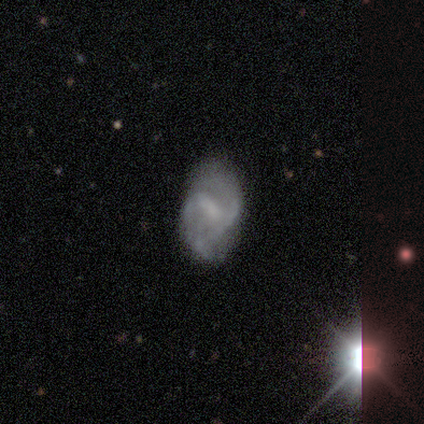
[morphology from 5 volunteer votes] A featured or disk galaxy (80%) with a strong bar (50%, tied with weak), 2 (50%) medium (75%) spiral arms (100%) and no central bulge (50%).

Vote fractions:
- Smooth or featured? featured or disk: 80% / smooth: 20% / star or artifact: 0%
- Edge-on disk? no: 100% / yes: 0%
- Bar? strong: 50% (tied) / weak: 50% (tied) / no: 0%
- Spiral arms? yes: 100% / no: 0%
- Spiral winding? medium: 75% / loose: 25% / tight: 0%
- Spiral arm count? 2: 50% / 3: 25% / can't tell: 25% / 1: 0% / 4: 0% / more than 4: 0%
- Bulge size? none: 50% / moderate: 25% / small: 25% / dominant: 0% / large: 0%
- Merging? none: 100% / minor disturbance: 0% / major disturbance: 0% / merger: 0%